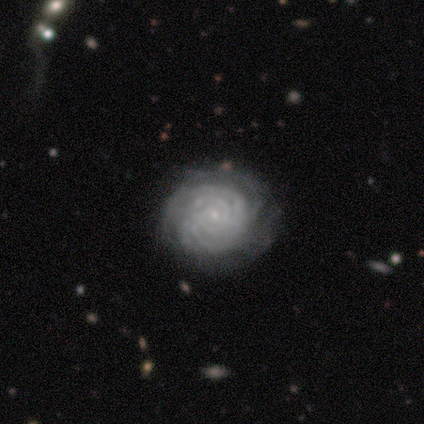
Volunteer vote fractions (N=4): Volunteers were most divided on "spiral arm count": can't tell: 50%, 4: 25%, more than 4: 25%, 1: 0%, 2: 0%, 3: 0%. More confident: smooth or featured — featured or disk (100%); edge-on disk — no (100%); spiral arms — yes (100%); spiral winding — tight (100%); bulge size — small (100%); merging — none (100%); bar — no (75%).